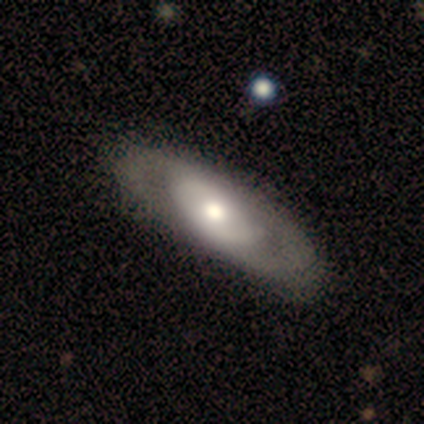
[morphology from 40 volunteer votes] Q: Smooth or featured?
A: featured or disk (65%); runner-up: smooth (25%)
Q: Edge-on disk?
A: no (96%); runner-up: yes (4%)
Q: Bar?
A: no (84%); runner-up: weak (12%)
Q: Spiral arms?
A: yes (60%); runner-up: no (40%)
Q: Spiral winding?
A: tight (60%); runner-up: medium (27%)
Q: Spiral arm count?
A: 2 (73%); runner-up: can't tell (13%)
Q: Bulge size?
A: moderate (60%); runner-up: large (28%)
Q: Merging?
A: none (69%); runner-up: minor disturbance (25%)